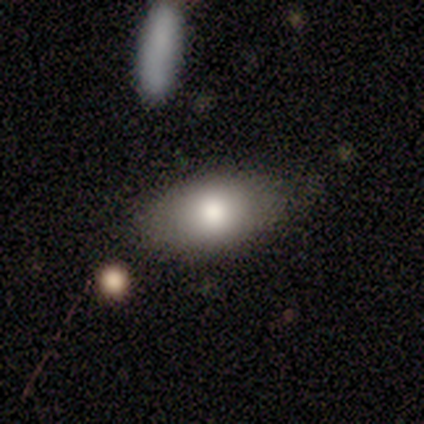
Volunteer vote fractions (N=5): A smooth galaxy with no disk features (80%) that is in between round and cigar-shaped (75%). Merging: none (60%).